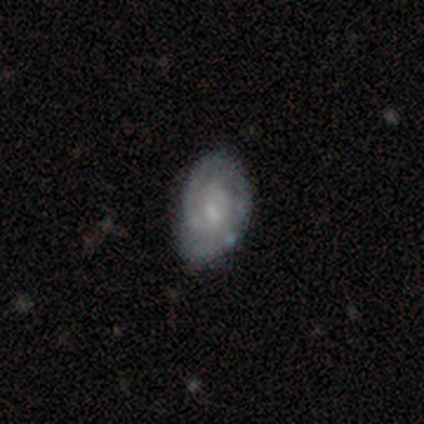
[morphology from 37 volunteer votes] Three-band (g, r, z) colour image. It shows a featured or disk galaxy (68%) with no bar (54%), 1 (38%) tight (86%) spiral arms (88%) and a small central bulge (54%). Merging: none (66%).